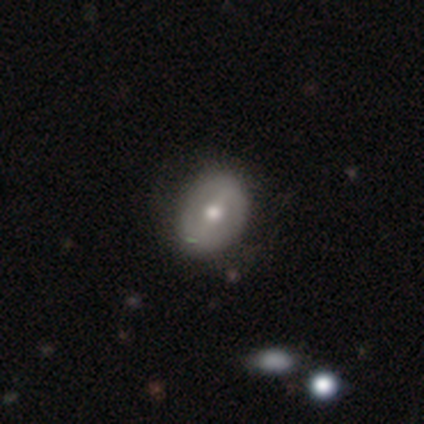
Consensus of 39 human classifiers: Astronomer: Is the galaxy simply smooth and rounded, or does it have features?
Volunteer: featured or disk — 62%.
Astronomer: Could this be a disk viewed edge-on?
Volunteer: no — 100%.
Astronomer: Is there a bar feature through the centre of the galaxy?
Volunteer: strong — 42% (runner-up: weak, 38%).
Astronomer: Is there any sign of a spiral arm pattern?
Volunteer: no — 71%.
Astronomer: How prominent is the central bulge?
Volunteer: moderate — 88%.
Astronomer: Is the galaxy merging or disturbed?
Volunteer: none — 57%.